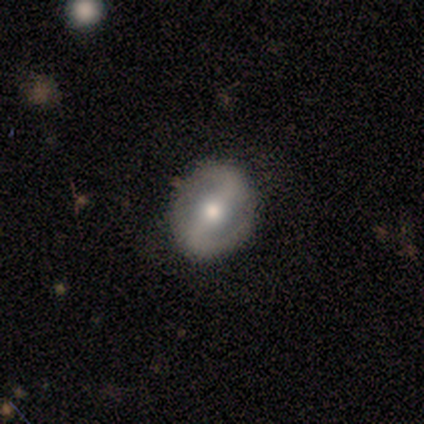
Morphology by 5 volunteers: Smooth or featured: featured or disk — 60% (smooth — 40%)
Edge-on disk: no — 100%
Bar: weak — 67% (strong — 33%)
Spiral arms: yes — 100%
Spiral winding: tight — 67% (medium — 33%)
Spiral arm count: 2 — 100%
Bulge size: moderate — 67% (small — 33%)
Merging: none — 100%